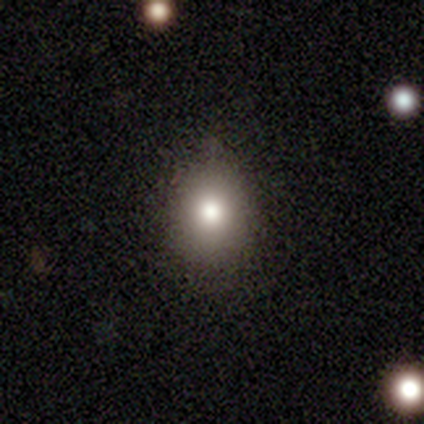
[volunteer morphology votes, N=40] A smooth galaxy with no disk features (85%) that is round (53%). Merging: none (86%).